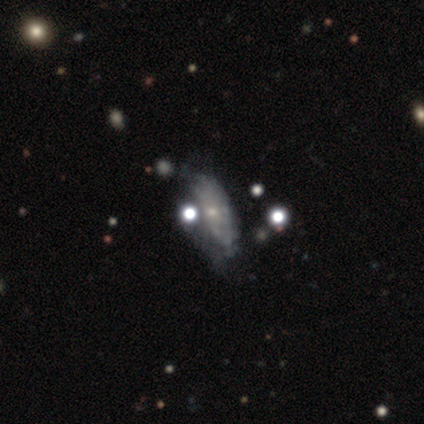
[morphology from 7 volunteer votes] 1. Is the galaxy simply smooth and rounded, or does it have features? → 71% featured or disk, 14% smooth, 14% star or artifact.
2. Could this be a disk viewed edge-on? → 100% no, 0% yes.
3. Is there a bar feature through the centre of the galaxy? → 100% no, 0% strong, 0% weak.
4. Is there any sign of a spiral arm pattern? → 80% no, 20% yes.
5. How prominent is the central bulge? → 60% small, 40% none, 0% dominant, 0% large, 0% moderate.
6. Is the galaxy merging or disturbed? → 67% none, 33% minor disturbance, 0% major disturbance, 0% merger.